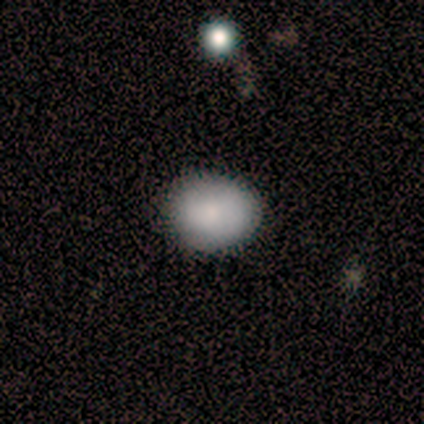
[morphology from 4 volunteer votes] smooth 75%, star or artifact 25%, featured or disk 0%. Down the decision tree: how rounded — in between (100%); merging — none (100%).